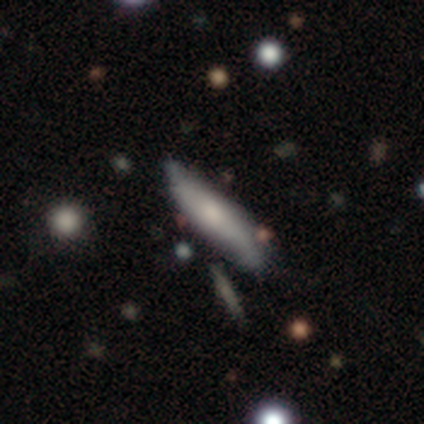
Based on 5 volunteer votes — smooth_or_featured: smooth (p=0.60) [alt: featured or disk p=0.40]
how_rounded: cigar-shaped (p=0.67) [alt: in between p=0.33]
merging: none (p=0.60) [alt: minor disturbance p=0.40]